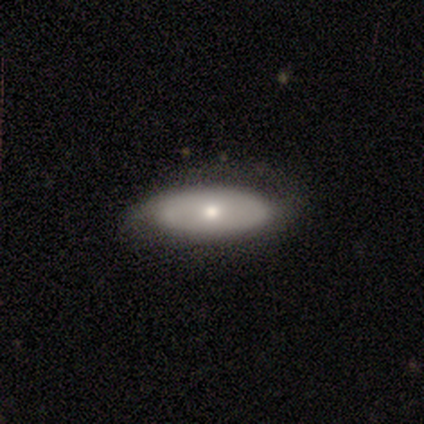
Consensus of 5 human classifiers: Q: Smooth or featured?
A: featured or disk (80%); runner-up: smooth (20%)
Q: Edge-on disk?
A: no (100%)
Q: Bar?
A: no (75%); runner-up: weak (25%)
Q: Spiral arms?
A: yes (50%); tied with: no (50%)
Q: Spiral winding?
A: loose (100%)
Q: Spiral arm count?
A: 2 (100%)
Q: Bulge size?
A: moderate (75%); runner-up: small (25%)
Q: Merging?
A: none (40%); tied with: minor disturbance (40%)